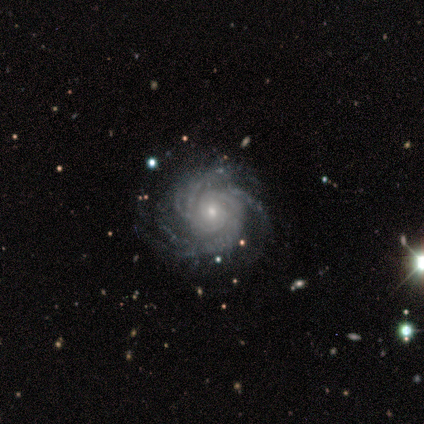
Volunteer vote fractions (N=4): Smooth or featured: featured or disk — 100%
Edge-on disk: no — 100%
Bar: no — 100%
Spiral arms: yes — 100%
Spiral winding: tight — 50% (tied with medium — 50%)
Spiral arm count: more than 4 — 75% (4 — 25%)
Bulge size: small — 75% (moderate — 25%)
Merging: none — 75% (minor disturbance — 25%)